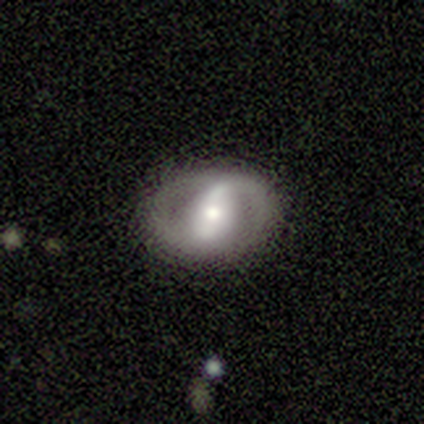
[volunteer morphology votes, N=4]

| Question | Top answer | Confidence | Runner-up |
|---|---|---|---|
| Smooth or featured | featured or disk | 75% | smooth (25%) |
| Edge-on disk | no | 100% | — |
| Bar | strong | 67% | weak (33%) |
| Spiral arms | no | 67% | yes (33%) |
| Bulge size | moderate | 67% | small (33%) |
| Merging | none | 50% | minor disturbance (25%) |